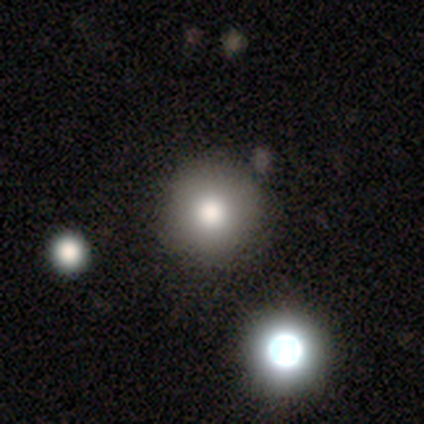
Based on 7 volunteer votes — This appears to be a smooth galaxy with no disk features (100%) that is round (100%). Merging: none (100%).